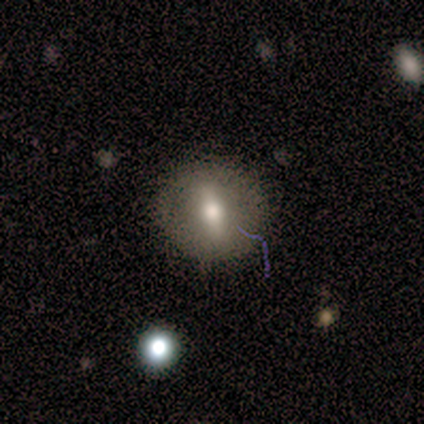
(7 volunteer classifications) Smooth or featured: smooth — 71% (featured or disk — 14%)
How rounded: round — 100%
Merging: none — 83% (major disturbance — 17%)